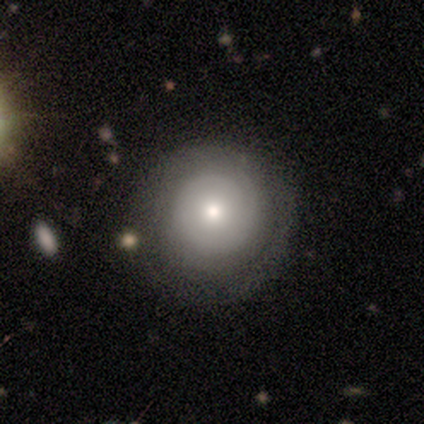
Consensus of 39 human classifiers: smooth-or-featured: smooth: 51% | featured or disk: 49% | star or artifact: 0%
  how-rounded: round: 100% | in between: 0% | cigar-shaped: 0%
  merging: none: 46% | minor disturbance: 3% | major disturbance: 3% | merger: 0%